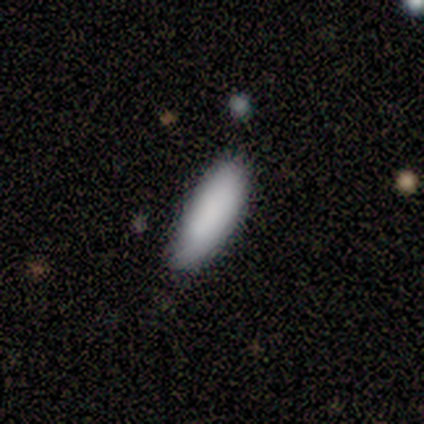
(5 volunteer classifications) Smooth or featured?
  - smooth: 100% *
  - featured or disk: 0%
  - star or artifact: 0%
How rounded?
  - in between: 60% *
  - cigar-shaped: 40%
  - round: 0%
Merging?
  - none: 60% *
  - minor disturbance: 20%
  - merger: 20%
  - major disturbance: 0%